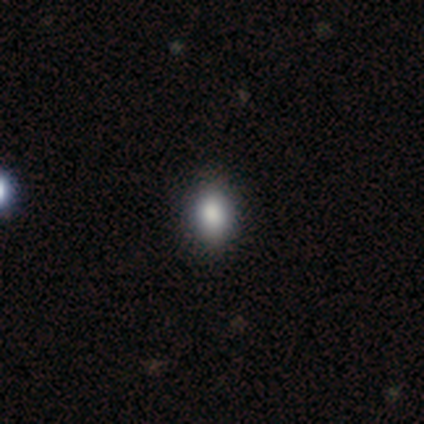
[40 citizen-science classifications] This is clearly a smooth galaxy (85%). How rounded: likely in between (79%). Merging: likely none (69%).